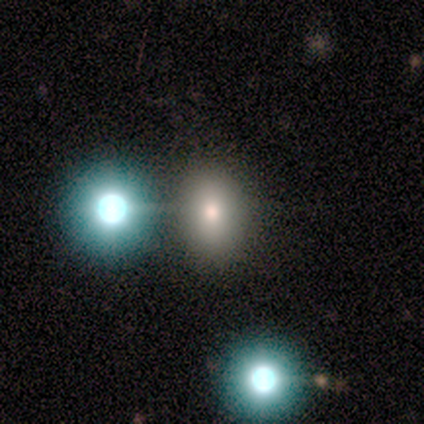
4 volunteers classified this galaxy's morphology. Smooth or featured?
  - smooth: 100% *
  - featured or disk: 0%
  - star or artifact: 0%
How rounded?
  - round: 50% * (tied)
  - in between: 50% * (tied)
  - cigar-shaped: 0%
Merging?
  - none: 75% *
  - minor disturbance: 25%
  - major disturbance: 0%
  - merger: 0%